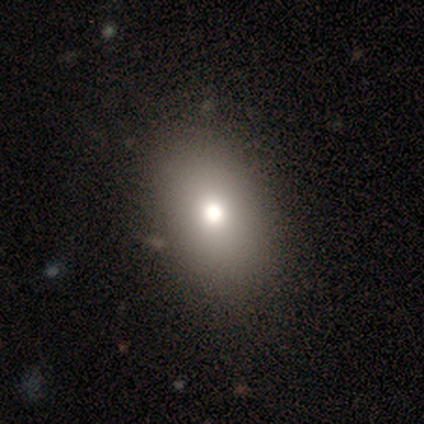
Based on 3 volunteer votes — This is likely a smooth galaxy (67%). How rounded: clearly in between (100%). Merging: clearly none (100%).